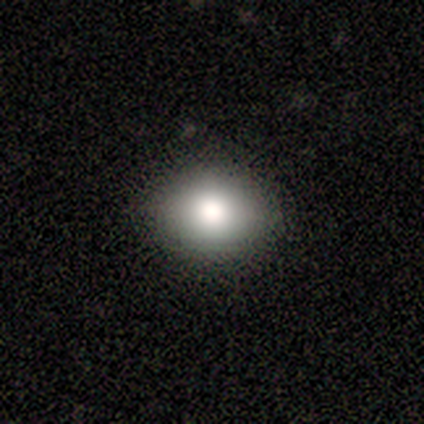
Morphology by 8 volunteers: smooth-or-featured: smooth: 88% | star or artifact: 12% | featured or disk: 0%
  how-rounded: round: 71% | in between: 29% | cigar-shaped: 0%
  merging: none: 86% | minor disturbance: 14% | major disturbance: 0% | merger: 0%